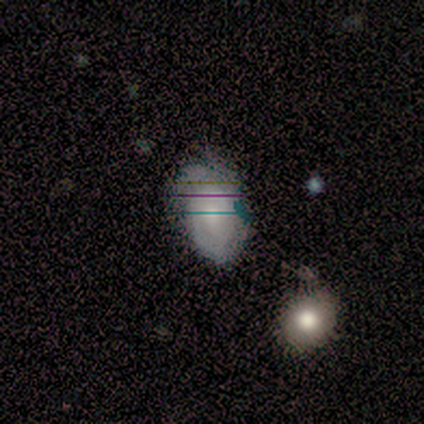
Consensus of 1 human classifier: This appears to be a smooth galaxy with no disk features (100%) that is in between round and cigar-shaped (100%). Merging: minor disturbance (100%).